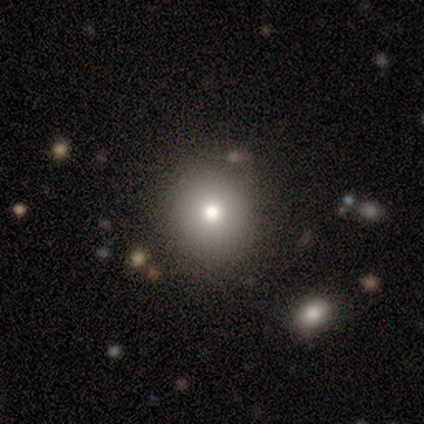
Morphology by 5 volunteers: Smooth or featured? 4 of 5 (80%) said smooth. How rounded? 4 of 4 (100%) said round. Merging? 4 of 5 (80%) said none.